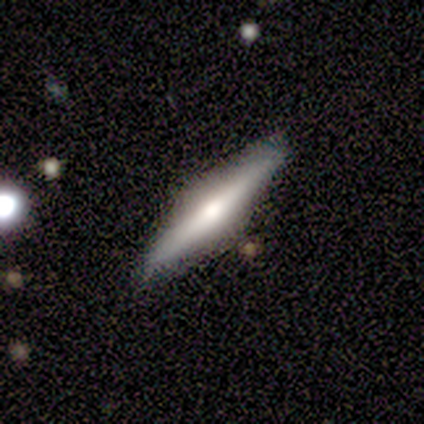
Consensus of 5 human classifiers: smooth 60%, featured or disk 40%, star or artifact 0%. Down the decision tree: how rounded — cigar-shaped (100%); merging — none (100%).